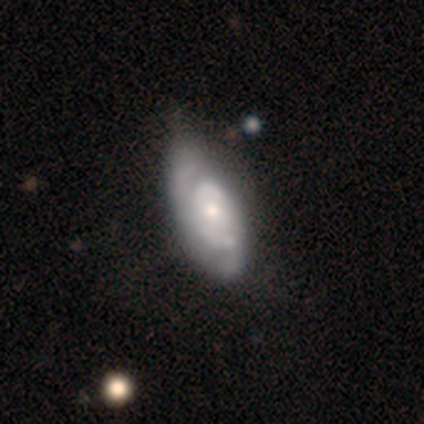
This is likely a featured or disk galaxy (65%). It is clearly not viewed edge-on (96%). Bar: likely no (76%). Spiral arm pattern: clearly yes (84%). Spiral arm count: possibly 2 (57%). Spiral winding: likely tight (67%). Central bulge: possibly moderate (48%). Merging: marginally none (38%, tied with minor disturbance).